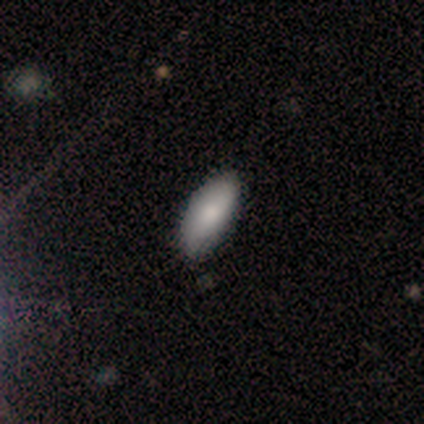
Morphology: type=smooth (100%); roundness=in between (100%); merging=none (80%).